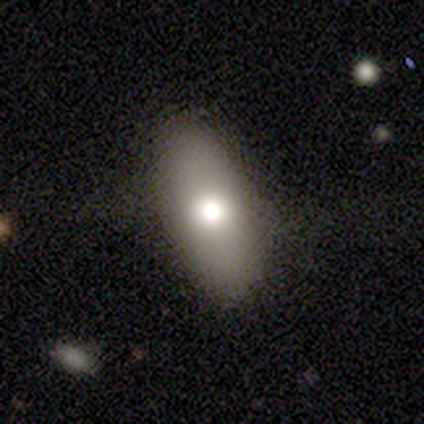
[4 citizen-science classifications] Volunteers were most divided on "smooth or featured" (2-way tie): smooth: 50%, featured or disk: 50%, star or artifact: 0%. More confident: how rounded — in between (100%); merging — none (100%).